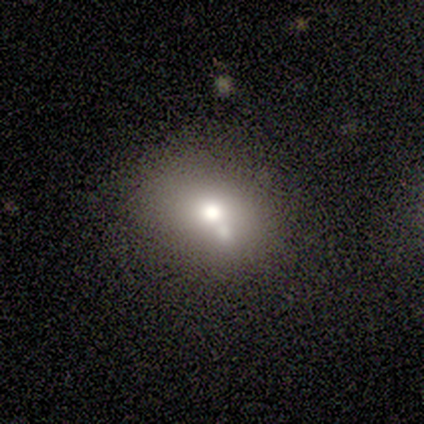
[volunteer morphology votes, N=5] smooth-or-featured: smooth: 60% | featured or disk: 20% | star or artifact: 20%
  how-rounded: in between: 67% | round: 33% | cigar-shaped: 0%
  merging: merger: 50% | none: 25% | minor disturbance: 25% | major disturbance: 0%